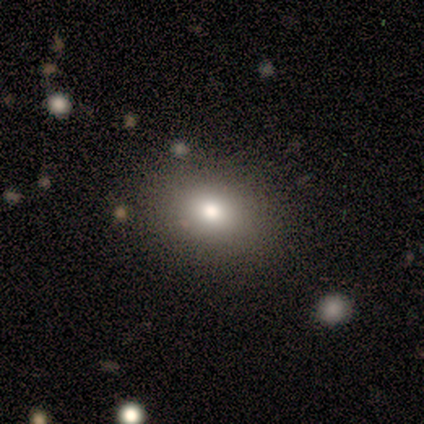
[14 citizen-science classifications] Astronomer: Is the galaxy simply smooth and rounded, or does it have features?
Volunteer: smooth — 93%.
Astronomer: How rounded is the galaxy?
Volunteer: in between — 62% (runner-up: round, 38%).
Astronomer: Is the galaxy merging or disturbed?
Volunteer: none — 92%.